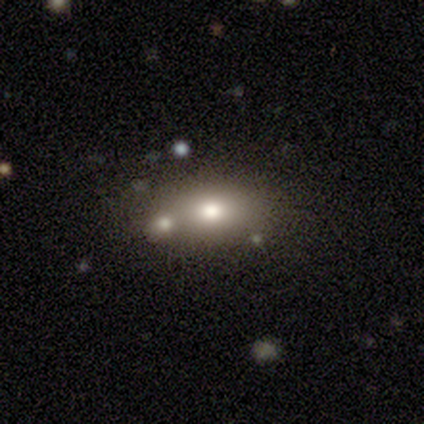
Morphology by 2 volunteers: Volunteers were most divided on "smooth or featured" (2-way tie): smooth: 50%, star or artifact: 50%, featured or disk: 0%. More confident: how rounded — in between (100%); merging — major disturbance (100%).